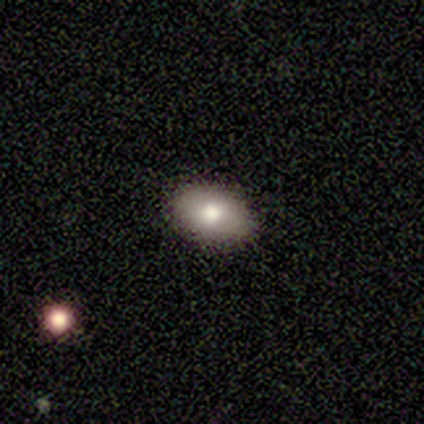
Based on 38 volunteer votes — smooth-or-featured: smooth: 71% | featured or disk: 24% | star or artifact: 5%
  how-rounded: in between: 89% | round: 11% | cigar-shaped: 0%
  merging: none: 92% | minor disturbance: 8% | major disturbance: 0% | merger: 0%